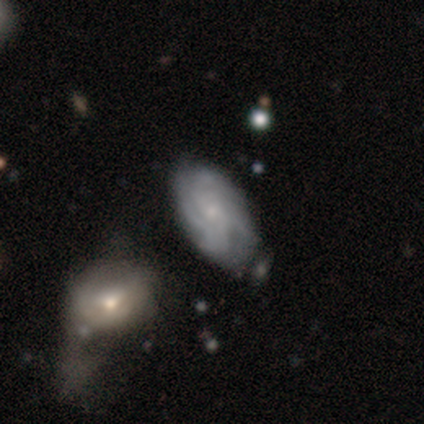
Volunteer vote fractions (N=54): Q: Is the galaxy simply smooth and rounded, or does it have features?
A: featured or disk — 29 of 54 (54%).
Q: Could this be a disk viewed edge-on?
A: no — 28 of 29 (97%).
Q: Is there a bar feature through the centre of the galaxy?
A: no — 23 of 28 (82%).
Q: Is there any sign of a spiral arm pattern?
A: yes — 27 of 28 (96%).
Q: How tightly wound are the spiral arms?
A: tight — 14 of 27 (52%).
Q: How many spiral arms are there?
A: can't tell — 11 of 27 (41%).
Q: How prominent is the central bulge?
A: small — 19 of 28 (68%).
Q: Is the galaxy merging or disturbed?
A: none — 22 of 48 (46%).